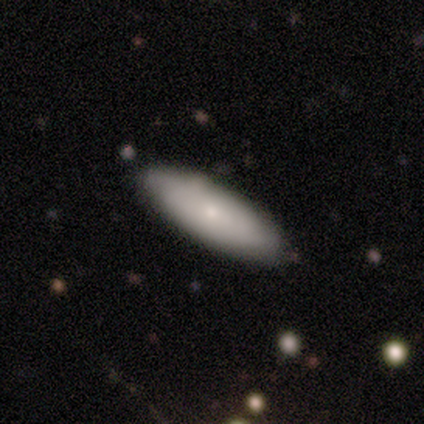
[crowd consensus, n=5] Smooth or featured: featured or disk — 60% (smooth — 40%)
Edge-on disk: no — 100%
Bar: no — 100%
Spiral arms: no — 100%
Bulge size: small — 67% (moderate — 33%)
Merging: none — 40% (tied with minor disturbance — 40%)